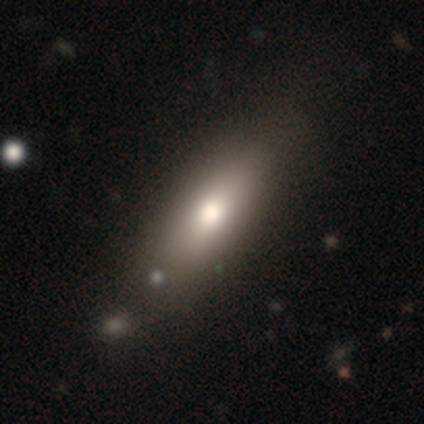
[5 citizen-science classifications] Smooth or featured? smooth (80%)
How rounded? in between (50%, tied with cigar-shaped)
Merging? none (80%)